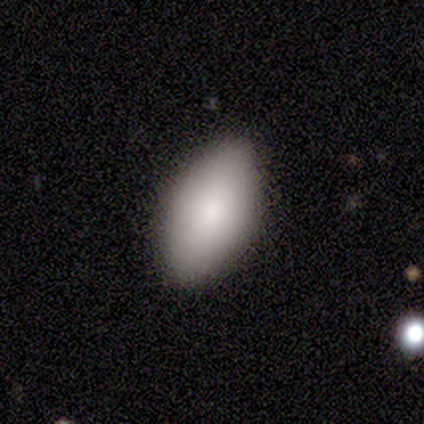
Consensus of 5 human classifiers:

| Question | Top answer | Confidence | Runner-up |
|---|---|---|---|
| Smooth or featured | smooth | 100% | — |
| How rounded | in between | 100% | — |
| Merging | none | 100% | — |